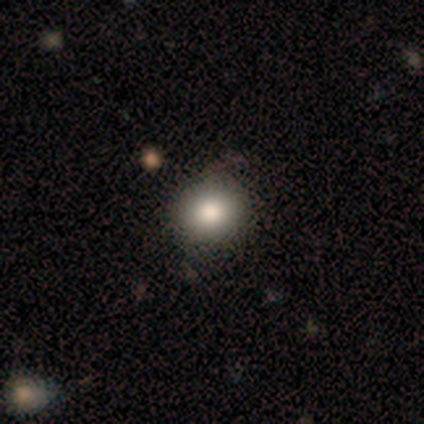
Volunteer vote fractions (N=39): smooth-or-featured: smooth: 85% | star or artifact: 10% | featured or disk: 5%
  how-rounded: round: 85% | in between: 15% | cigar-shaped: 0%
  merging: none: 86% | minor disturbance: 14% | major disturbance: 0% | merger: 0%